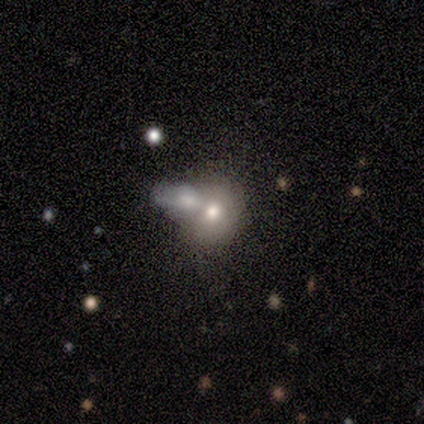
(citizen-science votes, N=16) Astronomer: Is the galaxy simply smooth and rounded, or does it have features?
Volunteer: smooth — 69%.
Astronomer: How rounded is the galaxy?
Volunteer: round — 82%.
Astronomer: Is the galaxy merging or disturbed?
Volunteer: merger — 50% (runner-up: none, 36%).